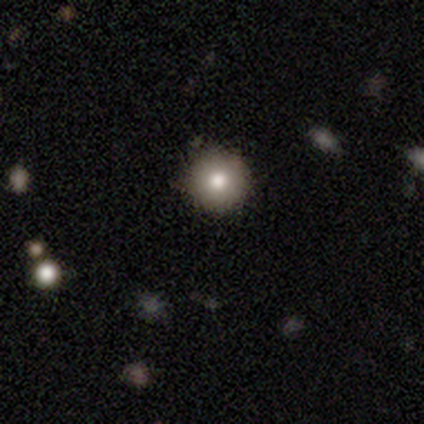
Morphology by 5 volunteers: Volunteers were most divided on "smooth or featured": smooth: 80%, featured or disk: 20%, star or artifact: 0%. More confident: how rounded — round (100%); merging — none (100%).